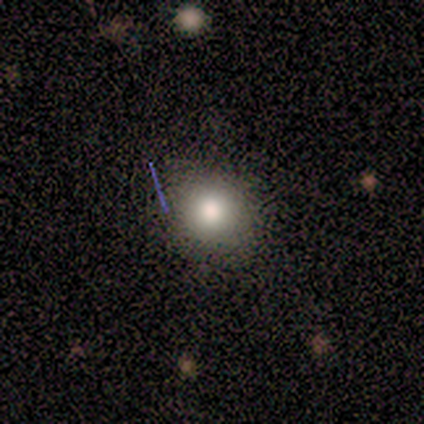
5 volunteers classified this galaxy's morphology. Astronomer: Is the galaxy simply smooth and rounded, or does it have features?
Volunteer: smooth — 100%.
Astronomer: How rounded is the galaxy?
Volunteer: round — 100%.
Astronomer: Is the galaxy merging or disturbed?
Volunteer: none — 100%.